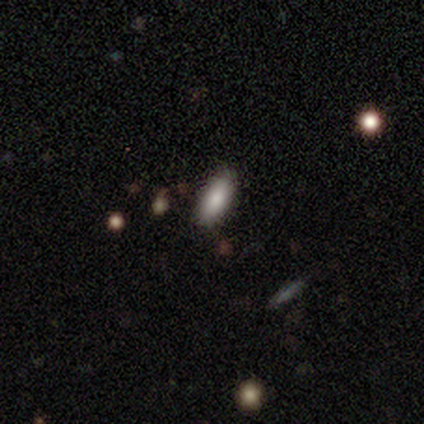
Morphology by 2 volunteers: smooth-or-featured: smooth: 50% (tied) | featured or disk: 50% (tied) | star or artifact: 0%
  how-rounded: in between: 100% | round: 0% | cigar-shaped: 0%
  merging: none: 50% (tied) | minor disturbance: 50% (tied) | major disturbance: 0% | merger: 0%